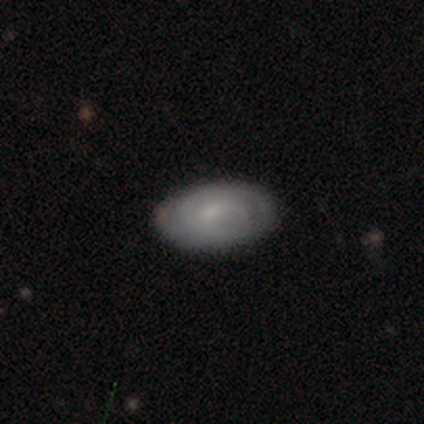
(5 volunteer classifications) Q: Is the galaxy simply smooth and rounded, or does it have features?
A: featured or disk — 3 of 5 (60%).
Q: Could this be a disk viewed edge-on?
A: no — 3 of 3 (100%).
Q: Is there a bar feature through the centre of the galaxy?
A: no — 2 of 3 (67%).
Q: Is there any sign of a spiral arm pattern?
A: yes — 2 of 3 (67%).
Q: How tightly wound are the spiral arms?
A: tight — 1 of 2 (50%, tied with medium).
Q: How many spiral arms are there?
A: can't tell — 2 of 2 (100%).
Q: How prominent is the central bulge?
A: small — 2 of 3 (67%).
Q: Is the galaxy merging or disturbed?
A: none — 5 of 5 (100%).